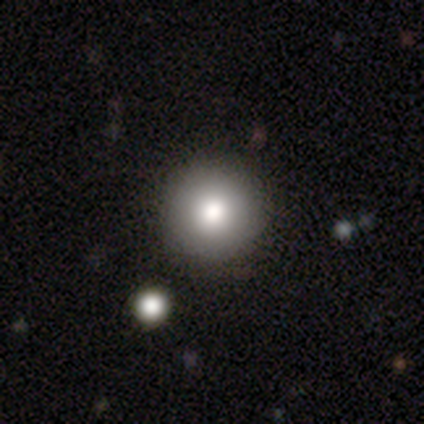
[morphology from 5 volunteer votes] smooth 100%, featured or disk 0%, star or artifact 0%. Down the decision tree: how rounded — round (100%); merging — none (100%).